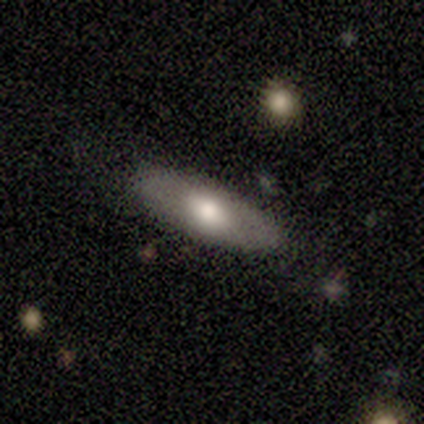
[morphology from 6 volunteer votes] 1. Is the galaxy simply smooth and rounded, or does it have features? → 50% smooth (tied), 50% featured or disk (tied), 0% star or artifact.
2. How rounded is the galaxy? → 100% in between, 0% round, 0% cigar-shaped.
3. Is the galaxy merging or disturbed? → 100% none, 0% minor disturbance, 0% major disturbance, 0% merger.